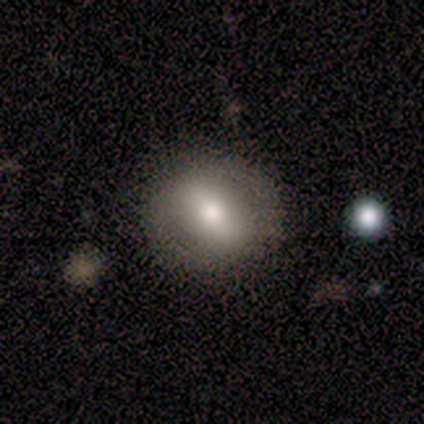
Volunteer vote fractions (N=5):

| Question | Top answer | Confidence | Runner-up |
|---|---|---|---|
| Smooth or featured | smooth | 80% | star or artifact (20%) |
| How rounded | round | 50% | tied: in between (50%) |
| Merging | none | 100% | — |